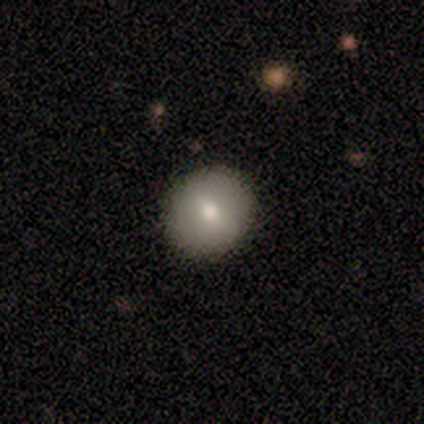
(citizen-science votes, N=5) Morphology: type=smooth (80%); roundness=round (100%); merging=none (100%).